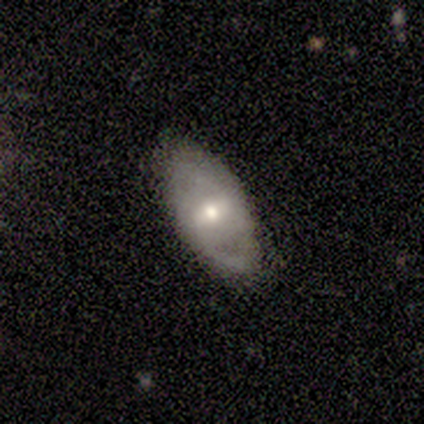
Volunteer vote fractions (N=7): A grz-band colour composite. It shows a featured or disk galaxy (86%) with a weak bar (75%), 2 (50%, tied with can't tell) tight (50%, tied with loose) spiral arms (50%, tied with no) and a small central bulge (50%). Merging: none (57%).